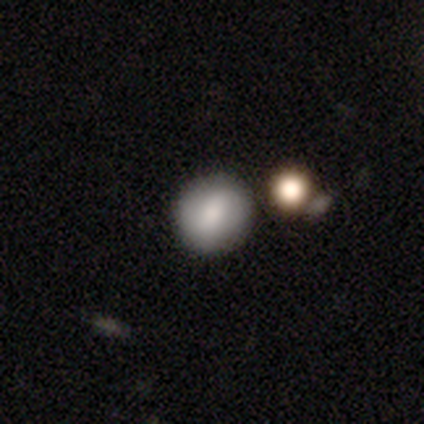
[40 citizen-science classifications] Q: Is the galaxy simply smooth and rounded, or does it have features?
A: smooth — 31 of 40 (78%).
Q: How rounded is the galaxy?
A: round — 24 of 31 (77%).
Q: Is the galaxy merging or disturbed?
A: none — 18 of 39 (46%).